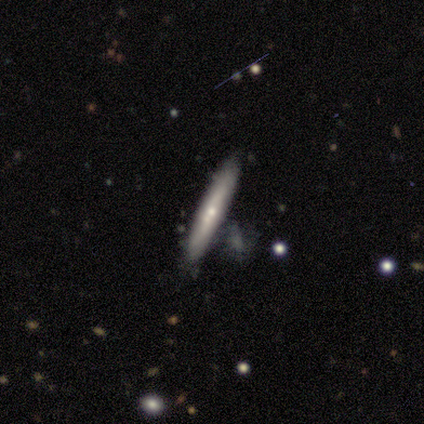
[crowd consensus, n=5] smooth 60%, featured or disk 20%, star or artifact 20%. Down the decision tree: how rounded — cigar-shaped (100%); merging — none (100%).